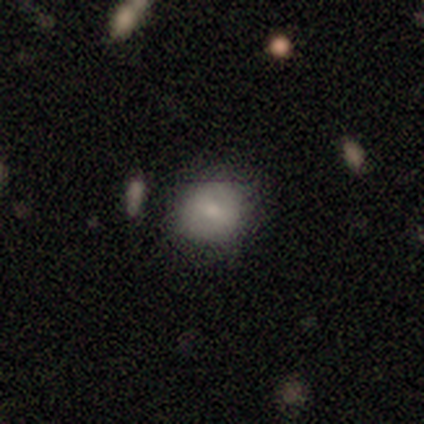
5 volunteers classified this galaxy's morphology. This is clearly a smooth galaxy (100%). How rounded: clearly round (80%). Merging: likely none (60%).